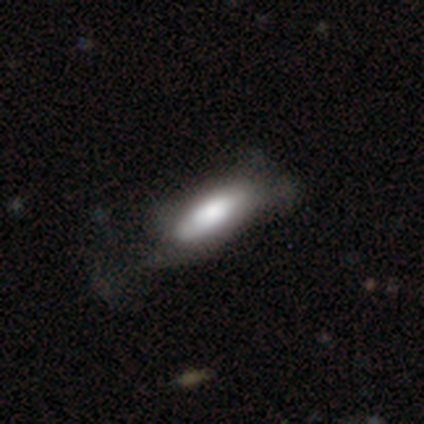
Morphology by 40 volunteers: Overall: smooth (70%). How rounded: in between (71%). Merging: minor disturbance (33%; major disturbance 28%).